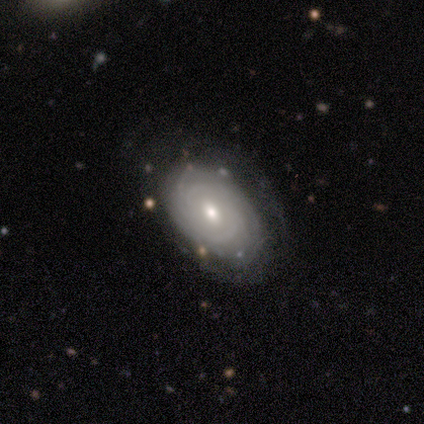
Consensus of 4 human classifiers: Q: Smooth or featured?
A: featured or disk (100%)
Q: Edge-on disk?
A: no (100%)
Q: Bar?
A: no (75%); runner-up: weak (25%)
Q: Spiral arms?
A: yes (75%); runner-up: no (25%)
Q: Spiral winding?
A: tight (67%); runner-up: loose (33%)
Q: Spiral arm count?
A: 2 (67%); runner-up: can't tell (33%)
Q: Bulge size?
A: moderate (75%); runner-up: small (25%)
Q: Merging?
A: none (75%); runner-up: minor disturbance (25%)